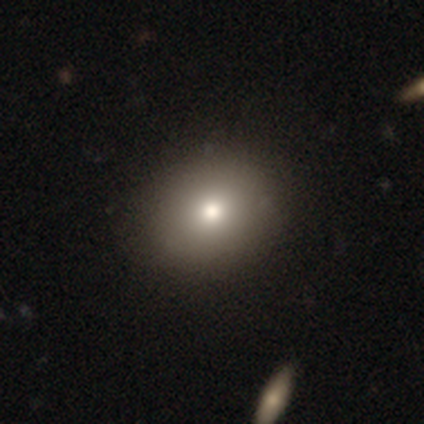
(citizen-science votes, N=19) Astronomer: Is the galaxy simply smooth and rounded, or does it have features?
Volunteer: smooth — 79%.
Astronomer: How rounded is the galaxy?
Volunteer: round — 53% (runner-up: in between, 47%).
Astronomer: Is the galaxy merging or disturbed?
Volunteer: none — 67%.